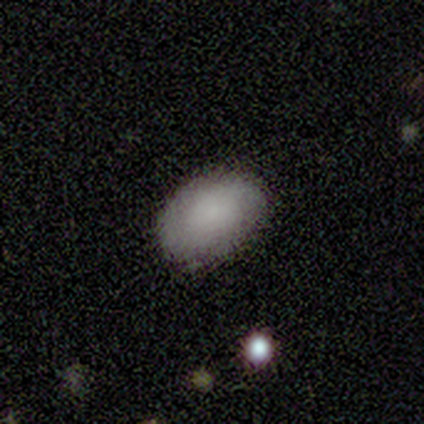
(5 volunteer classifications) Morphology: type=smooth (80%); roundness=in between (100%); merging=none (50%).